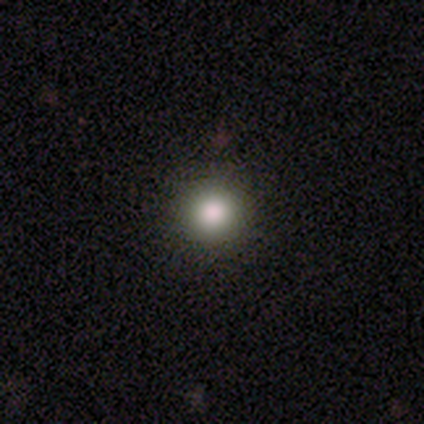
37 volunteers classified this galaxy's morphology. Volunteers were most divided on "smooth or featured": smooth: 70%, star or artifact: 22%, featured or disk: 8%. More confident: how rounded — round (100%); merging — none (100%).